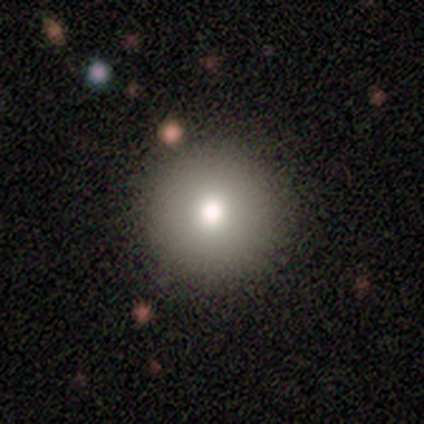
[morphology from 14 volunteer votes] smooth 71%, featured or disk 14%, star or artifact 14%. Down the decision tree: how rounded — round (100%); merging — none (100%).